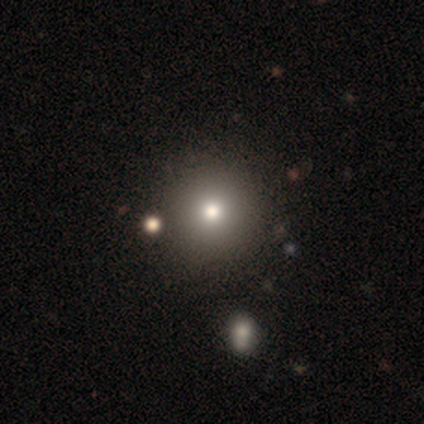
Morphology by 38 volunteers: This appears to be a smooth galaxy with no disk features (74%) that is round (96%). Merging: none (71%).